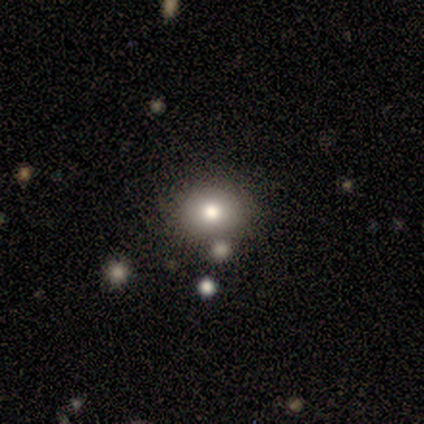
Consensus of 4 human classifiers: Smooth or featured: smooth — 75% (star or artifact — 25%)
How rounded: round — 67% (in between — 33%)
Merging: none — 67% (minor disturbance — 33%)